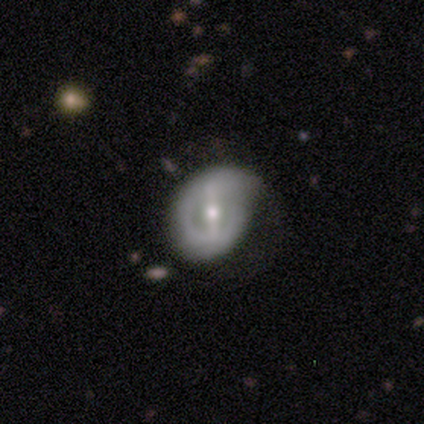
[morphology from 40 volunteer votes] smooth_or_featured: featured or disk (p=0.88) [alt: smooth p=0.10]
disk_edge_on: no (p=0.97) [alt: yes p=0.03]
bar: strong (p=0.65) [alt: weak p=0.21]
has_spiral_arms: no (p=0.53) [alt: yes p=0.47]
bulge_size: moderate (p=0.76) [alt: small p=0.21]
merging: none (p=0.38) [tied with: minor disturbance p=0.38]